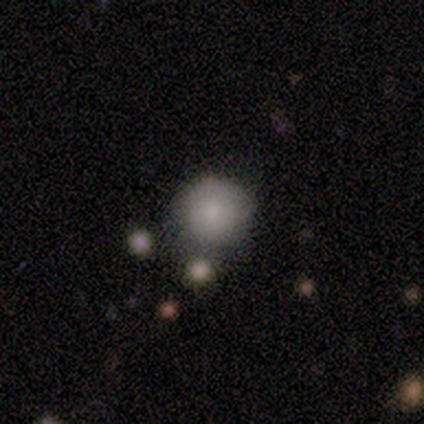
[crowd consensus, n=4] smooth-or-featured: smooth: 100% | featured or disk: 0% | star or artifact: 0%
  how-rounded: round: 100% | in between: 0% | cigar-shaped: 0%
  merging: none: 100% | minor disturbance: 0% | major disturbance: 0% | merger: 0%